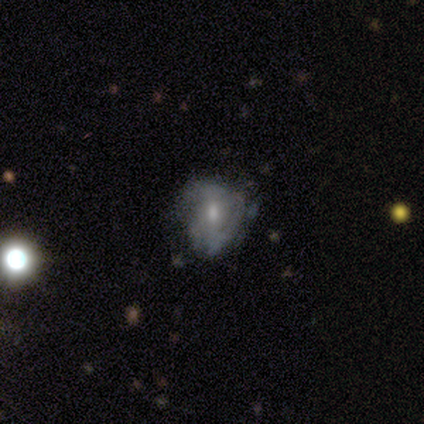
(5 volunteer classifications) Morphology: type=featured or disk (60%); edge-on=no (100%); bar=no (67%); spiral arms=no (67%); bulge=moderate (67%); merging=minor disturbance (75%).